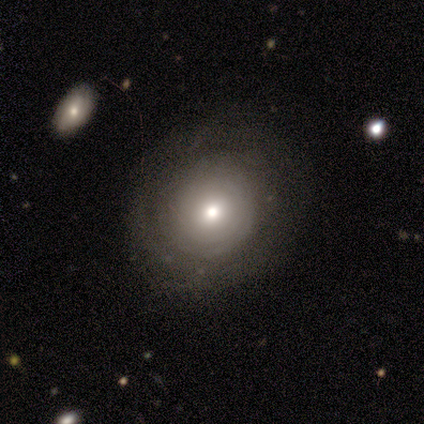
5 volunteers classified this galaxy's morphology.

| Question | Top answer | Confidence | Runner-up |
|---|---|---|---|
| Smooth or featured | featured or disk | 100% | — |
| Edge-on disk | no | 100% | — |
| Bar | no | 80% | strong (20%) |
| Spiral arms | no | 80% | yes (20%) |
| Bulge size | moderate | 60% | large (20%) |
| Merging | none | 80% | minor disturbance (20%) |